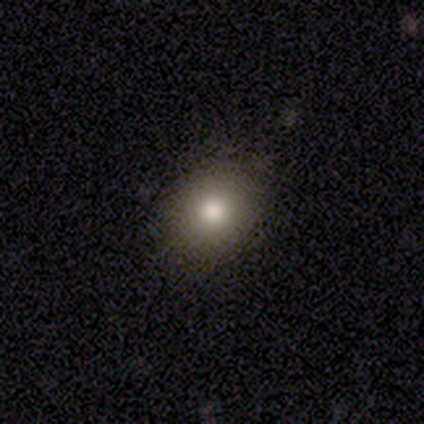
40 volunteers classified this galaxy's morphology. type=smooth (82%); roundness=round (64%); merging=none (94%).